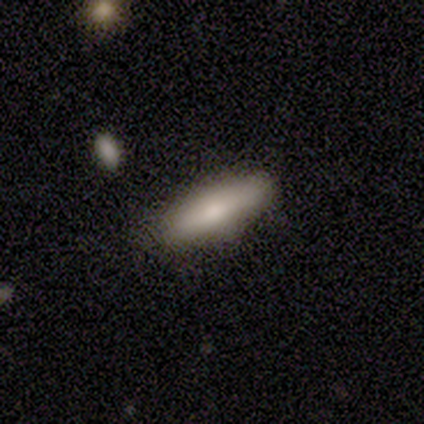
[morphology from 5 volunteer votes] smooth-or-featured: smooth: 100% | featured or disk: 0% | star or artifact: 0%
  how-rounded: cigar-shaped: 80% | in between: 20% | round: 0%
  merging: none: 100% | minor disturbance: 0% | major disturbance: 0% | merger: 0%